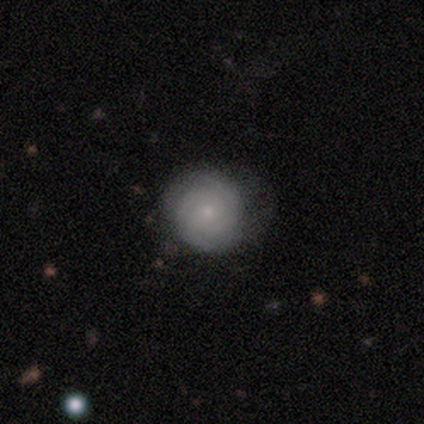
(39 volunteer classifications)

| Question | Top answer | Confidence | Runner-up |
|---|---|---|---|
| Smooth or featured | featured or disk | 62% | smooth (38%) |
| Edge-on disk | no | 96% | yes (4%) |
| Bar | no | 87% | weak (13%) |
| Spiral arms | yes | 91% | no (9%) |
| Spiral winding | tight | 90% | loose (10%) |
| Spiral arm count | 2 | 48% | can't tell (33%) |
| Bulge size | small | 74% | moderate (17%) |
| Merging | none | 36% | minor disturbance (13%) |